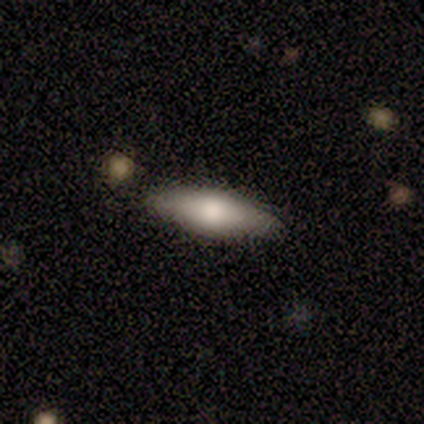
Q: Smooth or featured?
A: featured or disk (60%); runner-up: smooth (40%)
Q: Edge-on disk?
A: no (67%); runner-up: yes (33%)
Q: Bar?
A: no (100%)
Q: Spiral arms?
A: no (100%)
Q: Bulge size?
A: large (100%)
Q: Merging?
A: none (100%)